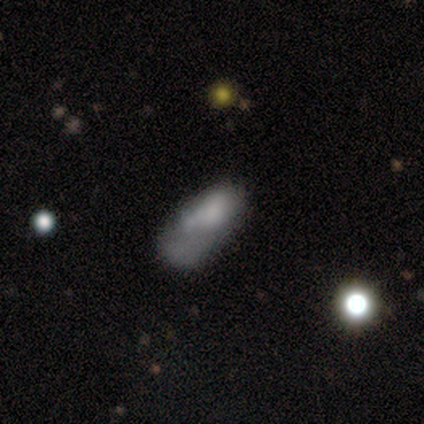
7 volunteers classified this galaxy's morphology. This is possibly a smooth galaxy (57%). How rounded: likely in between (75%). Merging: marginally minor disturbance (43%, tied with major disturbance).